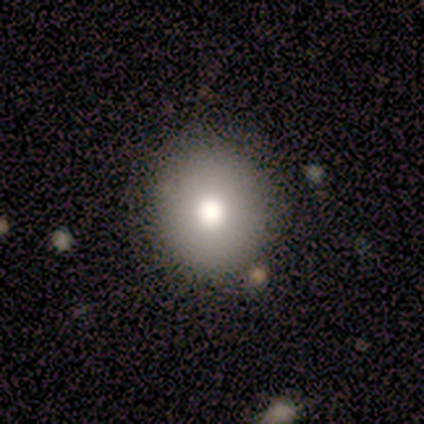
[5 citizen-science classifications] A smooth galaxy with no disk features (100%) that is round (100%). Merging: none (100%).